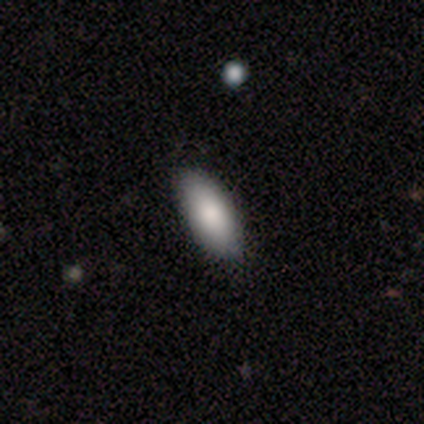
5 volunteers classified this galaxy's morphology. smooth_or_featured: smooth (p=1.00)
how_rounded: in between (p=1.00)
merging: none (p=1.00)